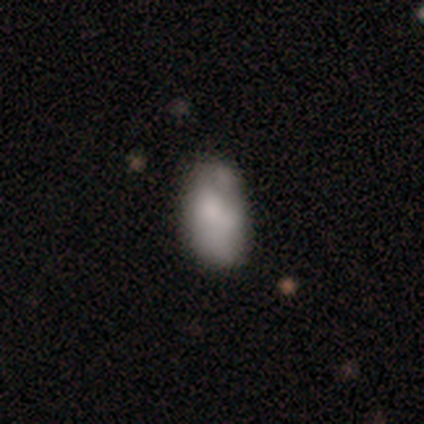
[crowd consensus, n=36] This appears to be a smooth galaxy with no disk features (56%) that is in between round and cigar-shaped (95%). Merging: minor disturbance (45%).